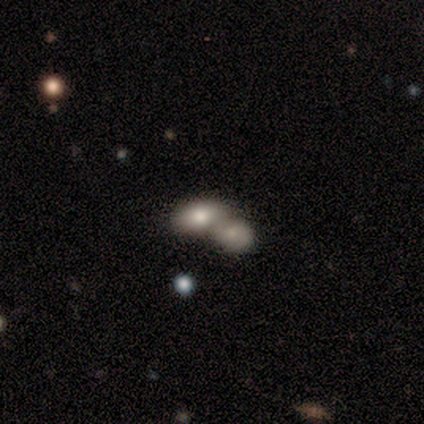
A smooth galaxy with no disk features (100%) that is in between round and cigar-shaped (100%).

Vote fractions:
- Smooth or featured? smooth: 100% / featured or disk: 0% / star or artifact: 0%
- How rounded? in between: 100% / round: 0% / cigar-shaped: 0%
- Merging? merger: 100% / none: 0% / minor disturbance: 0% / major disturbance: 0%